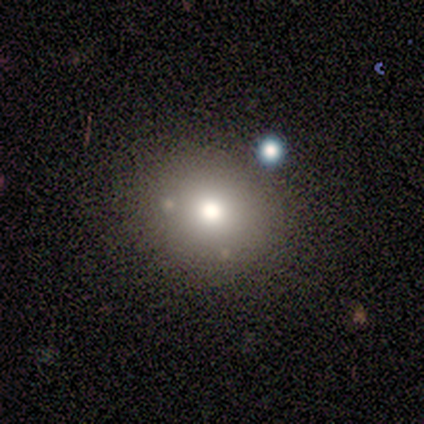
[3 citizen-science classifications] Smooth or featured? 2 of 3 (67%) said smooth. How rounded? 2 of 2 (100%) said round. Merging? 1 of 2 (50%, tied with major disturbance) said none.